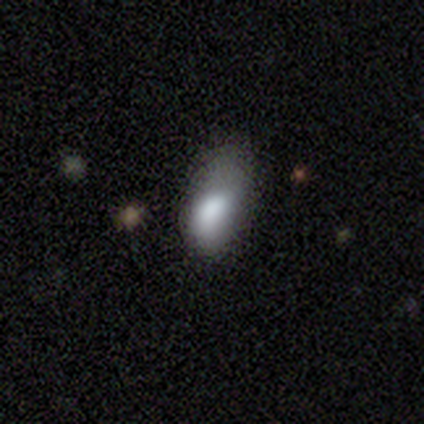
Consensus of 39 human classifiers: smooth 77%, featured or disk 13%, star or artifact 10%. Down the decision tree: how rounded — in between (87%); merging — minor disturbance (43%).